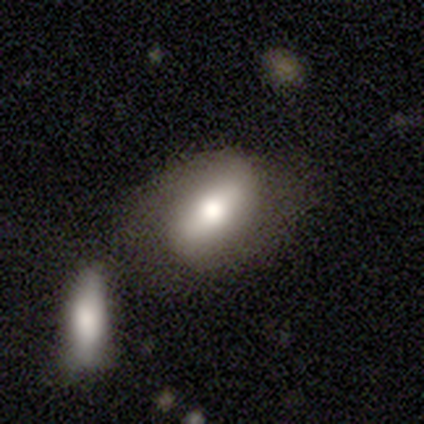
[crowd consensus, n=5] Smooth or featured? smooth (40%, tied with featured or disk)
How rounded? in between (100%)
Merging? none (50%, tied with merger)